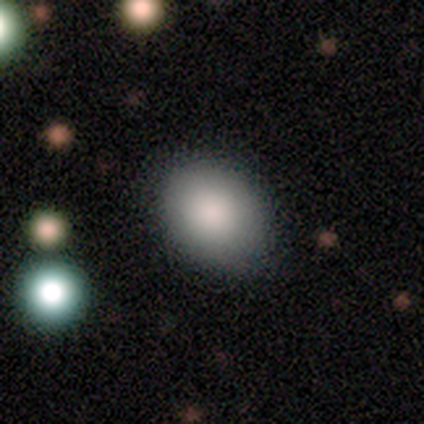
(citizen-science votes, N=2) Smooth or featured? 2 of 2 (100%) said smooth. How rounded? 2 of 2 (100%) said in between. Merging? 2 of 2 (100%) said none.